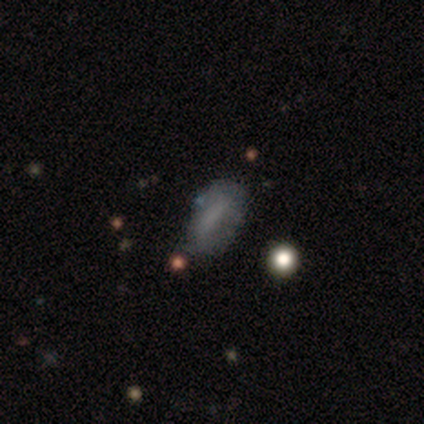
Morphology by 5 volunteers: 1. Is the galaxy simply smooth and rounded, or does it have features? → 80% smooth, 20% featured or disk, 0% star or artifact.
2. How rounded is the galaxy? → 50% in between (tied), 50% cigar-shaped (tied), 0% round.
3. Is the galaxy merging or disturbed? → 60% none, 20% minor disturbance, 20% merger, 0% major disturbance.